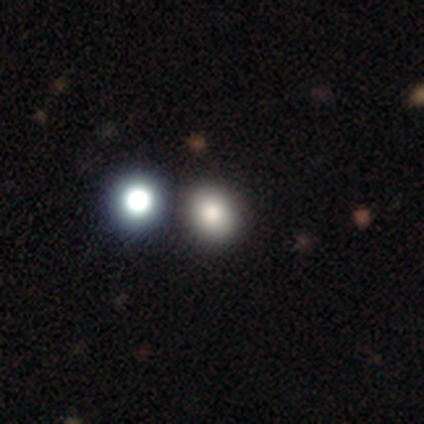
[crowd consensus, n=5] Q: Smooth or featured?
A: smooth (40%); tied with: featured or disk (40%)
Q: How rounded?
A: in between (100%)
Q: Merging?
A: none (75%); runner-up: minor disturbance (25%)